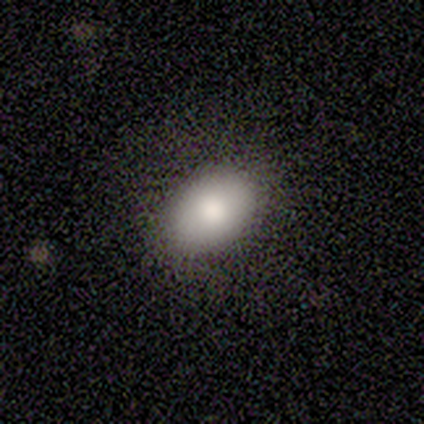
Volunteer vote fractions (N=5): Q: Smooth or featured?
A: smooth (100%)
Q: How rounded?
A: in between (80%); runner-up: round (20%)
Q: Merging?
A: none (100%)